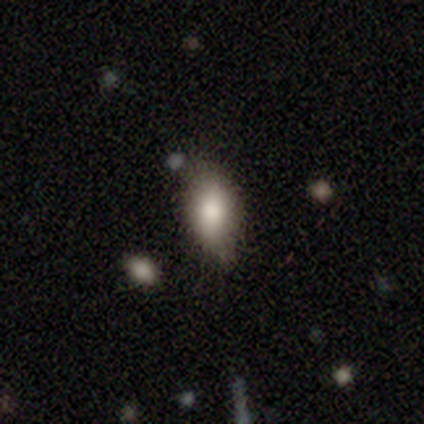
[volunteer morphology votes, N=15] Smooth or featured: smooth — 80% (star or artifact — 13%)
How rounded: in between — 100%
Merging: none — 69% (minor disturbance — 31%)